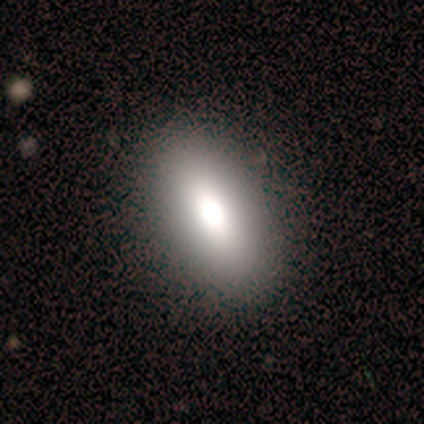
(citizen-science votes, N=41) smooth_or_featured: smooth (p=0.78) [alt: featured or disk p=0.17]
how_rounded: in between (p=0.88) [alt: cigar-shaped p=0.09]
merging: none (p=0.56) [alt: minor disturbance p=0.10]